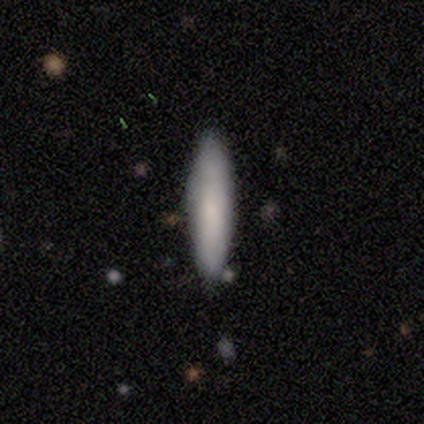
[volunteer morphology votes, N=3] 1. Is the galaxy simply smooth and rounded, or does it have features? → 67% smooth, 33% featured or disk, 0% star or artifact.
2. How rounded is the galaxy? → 100% cigar-shaped, 0% round, 0% in between.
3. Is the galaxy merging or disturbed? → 67% none, 33% minor disturbance, 0% major disturbance, 0% merger.